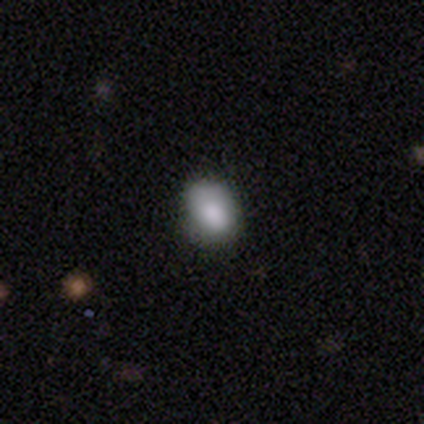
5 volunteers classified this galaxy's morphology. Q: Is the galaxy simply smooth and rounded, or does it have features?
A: smooth — 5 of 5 (100%).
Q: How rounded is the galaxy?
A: in between — 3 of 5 (60%).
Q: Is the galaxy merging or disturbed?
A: none — 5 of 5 (100%).